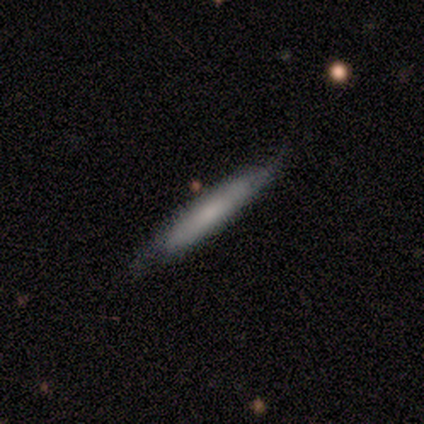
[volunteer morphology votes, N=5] This is clearly a smooth galaxy (80%). How rounded: clearly cigar-shaped (100%). Merging: likely none (60%).